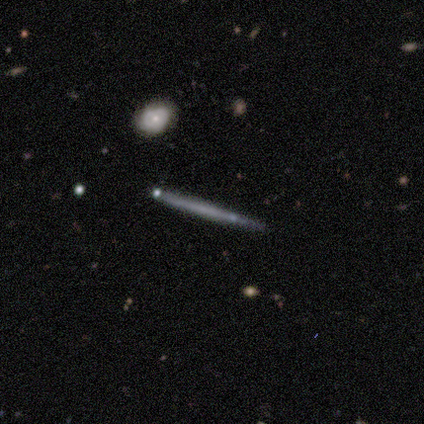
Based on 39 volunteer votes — Overall: featured or disk (56%; smooth 36%). Edge-on disk: yes (91%). Edge-on bulge: none (90%). Merging: none (92%).